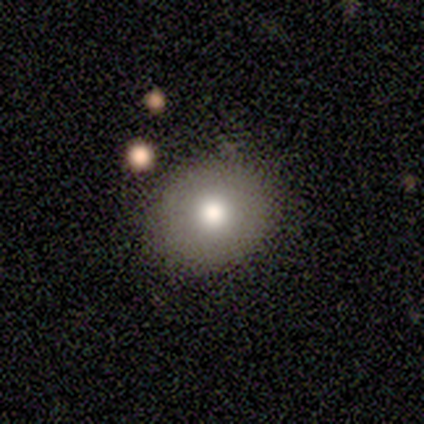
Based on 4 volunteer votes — Overall: smooth (100%). How rounded: round (75%). Merging: none (100%).